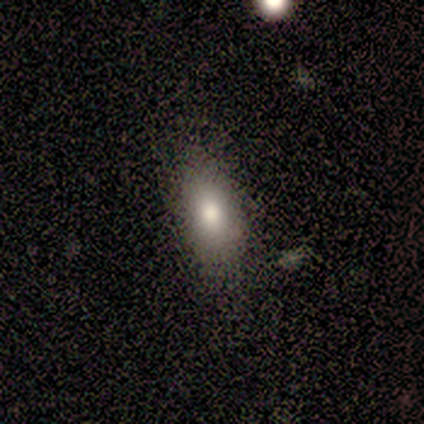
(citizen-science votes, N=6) smooth_or_featured: smooth (p=1.00)
how_rounded: in between (p=0.83) [alt: cigar-shaped p=0.17]
merging: none (p=0.83) [alt: minor disturbance p=0.17]